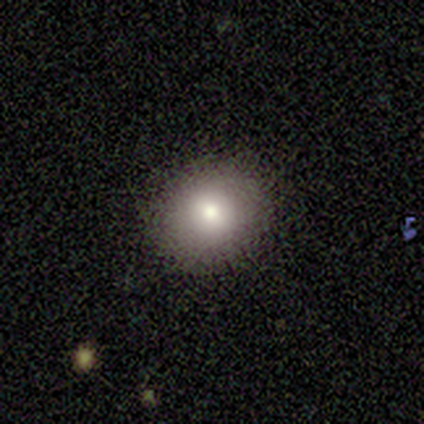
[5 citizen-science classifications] Morphology: type=smooth (60%); roundness=round (67%); merging=none (75%).